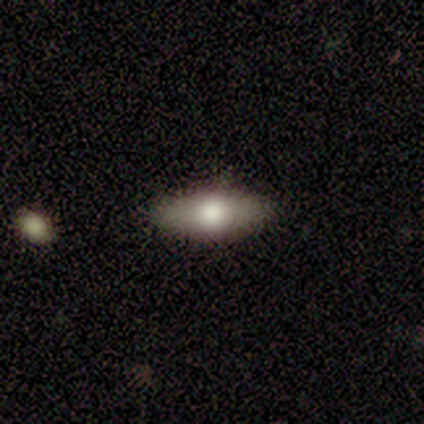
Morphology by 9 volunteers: A smooth galaxy with no disk features (100%) that is in between round and cigar-shaped (89%).

Vote fractions:
- Smooth or featured? smooth: 100% / featured or disk: 0% / star or artifact: 0%
- How rounded? in between: 89% / cigar-shaped: 11% / round: 0%
- Merging? none: 89% / major disturbance: 11% / minor disturbance: 0% / merger: 0%